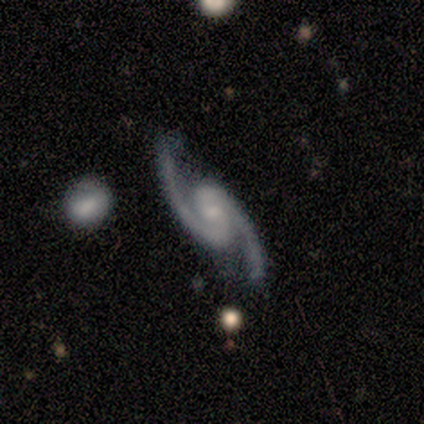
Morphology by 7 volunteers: A featured or disk galaxy (100%) with a weak bar (57%), 2 (100%) medium (71%) spiral arms (100%) and a small central bulge (71%). Merging: none (86%).